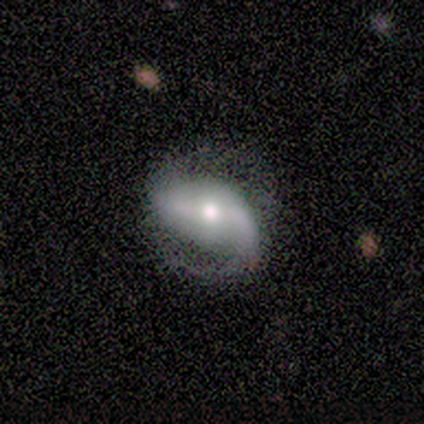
smooth_or_featured: featured or disk (p=0.86) [alt: smooth p=0.10]
disk_edge_on: no (p=0.98) [alt: yes p=0.02]
bar: weak (p=0.40) [alt: strong p=0.31]
has_spiral_arms: yes (p=0.95) [alt: no p=0.05]
spiral_winding: loose (p=0.40) [alt: medium p=0.38]
spiral_arm_count: 2 (p=0.90) [alt: 1 p=0.10]
bulge_size: moderate (p=0.57) [alt: small p=0.19]
merging: none (p=0.65) [alt: major disturbance p=0.21]